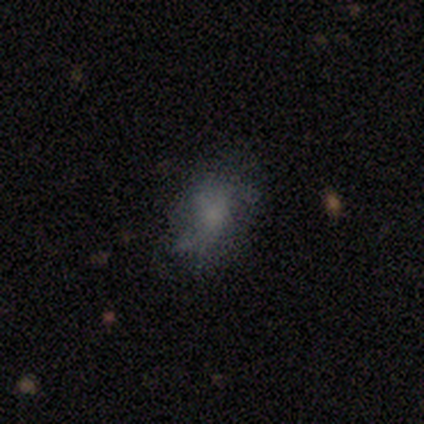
A smooth galaxy with no disk features (50%) that is in between round and cigar-shaped (79%).

Vote fractions:
- Smooth or featured? smooth: 50% / featured or disk: 37% / star or artifact: 13%
- How rounded? in between: 79% / round: 21% / cigar-shaped: 0%
- Merging? none: 58% / major disturbance: 27% / minor disturbance: 15% / merger: 0%